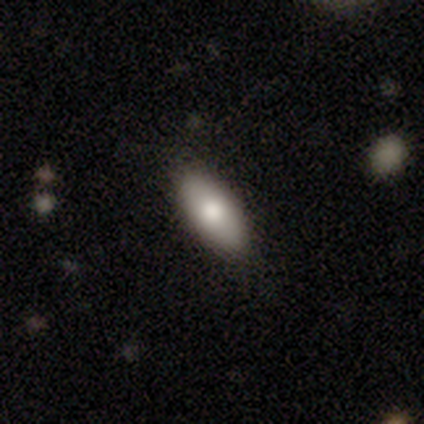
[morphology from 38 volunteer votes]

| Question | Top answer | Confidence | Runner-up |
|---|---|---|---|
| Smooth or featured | smooth | 71% | featured or disk (24%) |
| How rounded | in between | 96% | cigar-shaped (4%) |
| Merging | none | 86% | minor disturbance (8%) |